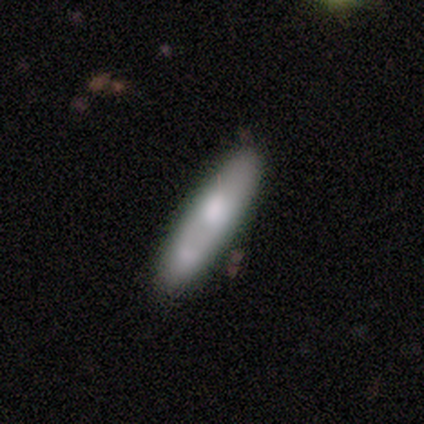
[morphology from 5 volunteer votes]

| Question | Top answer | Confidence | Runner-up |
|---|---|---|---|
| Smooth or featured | smooth | 80% | featured or disk (20%) |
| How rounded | cigar-shaped | 100% | — |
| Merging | none | 100% | — |